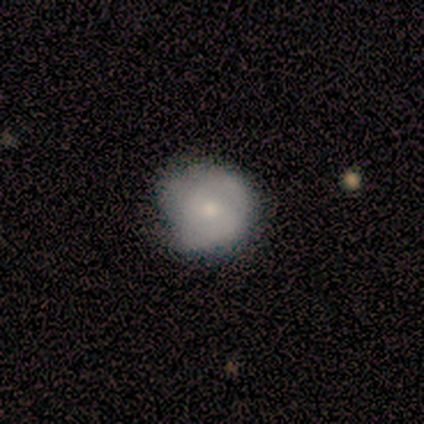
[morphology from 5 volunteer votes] Q: Smooth or featured?
A: smooth (60%); runner-up: featured or disk (40%)
Q: How rounded?
A: round (100%)
Q: Merging?
A: none (80%); runner-up: minor disturbance (20%)